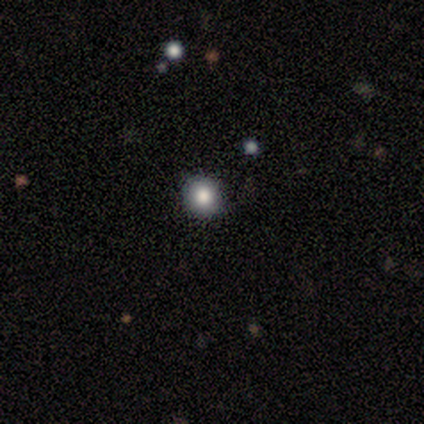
smooth-or-featured: smooth: 80% | featured or disk: 20% | star or artifact: 0%
  how-rounded: round: 75% | in between: 25% | cigar-shaped: 0%
  merging: none: 100% | minor disturbance: 0% | major disturbance: 0% | merger: 0%